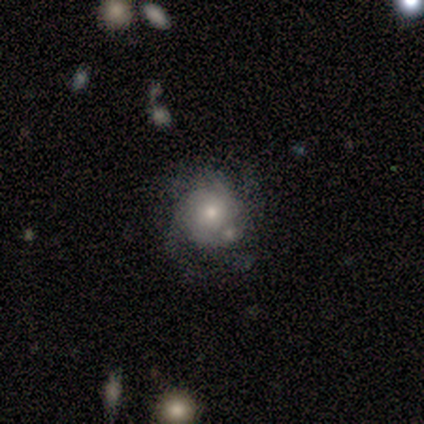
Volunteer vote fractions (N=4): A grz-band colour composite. It shows a smooth galaxy with no disk features (50%, tied with featured or disk) that is round (100%). Merging: major disturbance (50%).